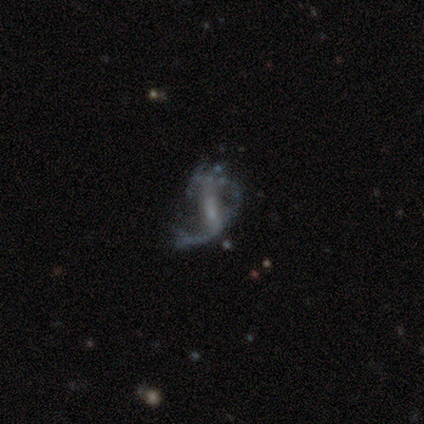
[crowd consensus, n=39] Morphology: type=featured or disk (79%); edge-on=no (94%); bar=strong (41%); spiral arms=yes (76%); winding=loose (64%); arm count=1 (41%); bulge=small (52%); merging=none (36%, tied with major disturbance).